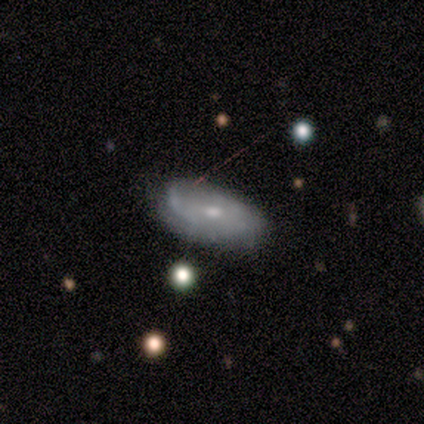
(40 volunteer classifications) A featured or disk galaxy (70%) with no bar (74%), tight (59%) spiral arms (63%) and a moderate central bulge (48%, tied with small).

Vote fractions:
- Smooth or featured? featured or disk: 70% / smooth: 28% / star or artifact: 2%
- Edge-on disk? no: 96% / yes: 4%
- Bar? no: 74% / weak: 26% / strong: 0%
- Spiral arms? yes: 63% / no: 37%
- Spiral winding? tight: 59% / medium: 35% / loose: 6%
- Spiral arm count? can't tell: 41% / 1: 29% / 2: 24% / 3: 6% / 4: 0% / more than 4: 0%
- Bulge size? moderate: 48% (tied) / small: 48% (tied) / none: 4% / dominant: 0% / large: 0%
- Merging? none: 64% / minor disturbance: 26% / major disturbance: 8% / merger: 3%